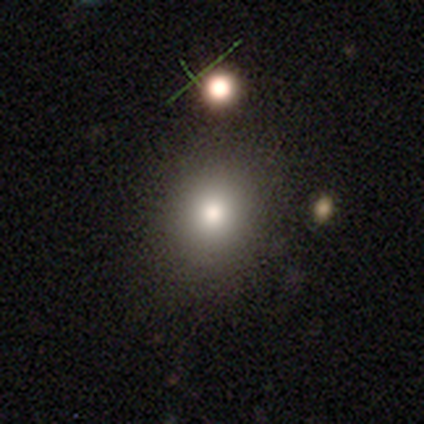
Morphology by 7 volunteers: Smooth or featured? smooth (86%)
How rounded? round (100%)
Merging? none (100%)